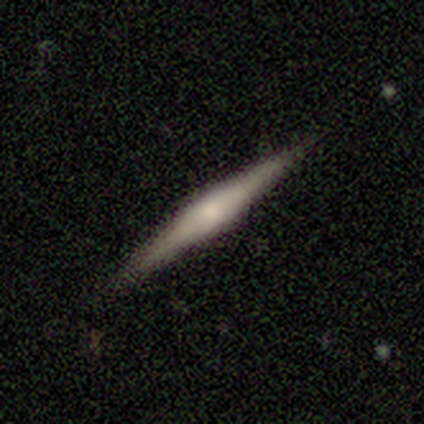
Volunteers were most divided on "smooth or featured" (2-way tie): smooth: 50%, featured or disk: 50%, star or artifact: 0%. More confident: how rounded — cigar-shaped (100%); merging — none (75%).